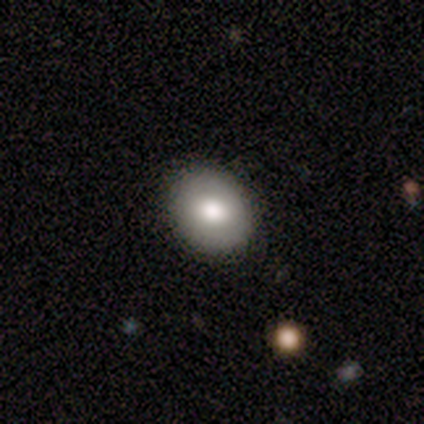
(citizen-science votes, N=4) smooth-or-featured: smooth: 75% | featured or disk: 25% | star or artifact: 0%
  how-rounded: in between: 100% | round: 0% | cigar-shaped: 0%
  merging: none: 75% | minor disturbance: 25% | major disturbance: 0% | merger: 0%